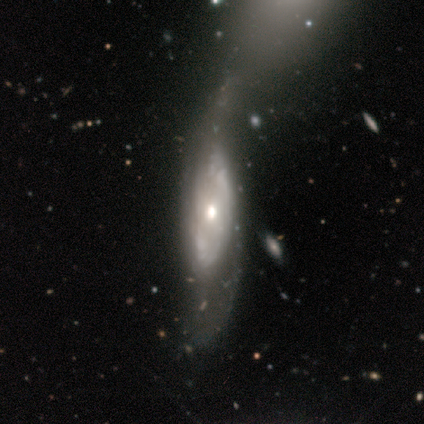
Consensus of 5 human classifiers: This appears to be a featured or disk galaxy (80%) with a strong bar (67%), 2 (100%) tight (33%, tied with medium and loose) spiral arms (100%) and a moderate central bulge (67%). Merging: major disturbance (50%).